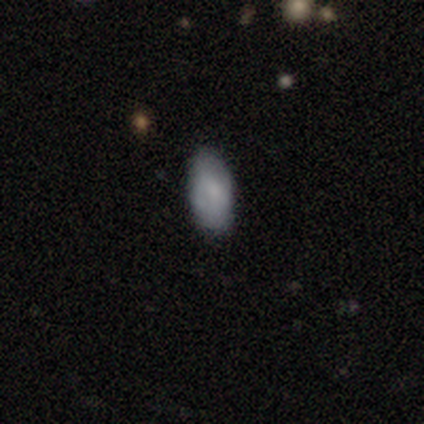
This appears to be a smooth galaxy with no disk features (60%) that is round (33%, tied with in between and cigar-shaped). Merging: none (80%).